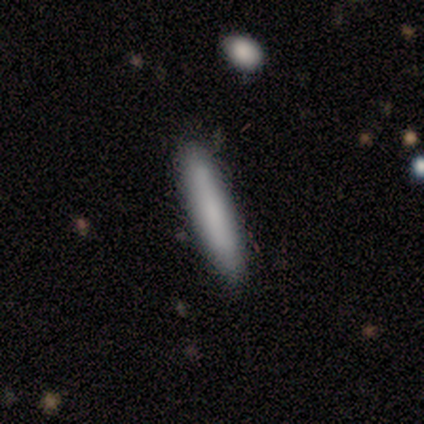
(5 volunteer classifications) Smooth or featured?
  - smooth: 80% *
  - featured or disk: 20%
  - star or artifact: 0%
How rounded?
  - cigar-shaped: 100% *
  - round: 0%
  - in between: 0%
Merging?
  - none: 80% *
  - minor disturbance: 20%
  - major disturbance: 0%
  - merger: 0%